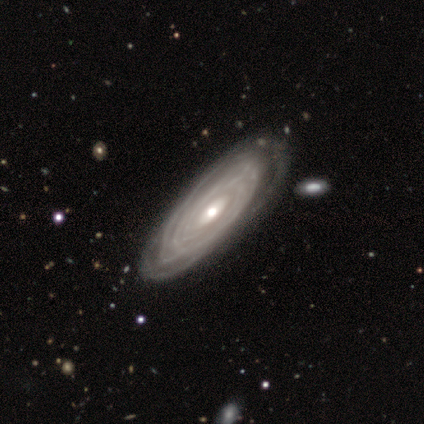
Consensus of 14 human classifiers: smooth_or_featured: featured or disk (p=1.00)
disk_edge_on: no (p=0.93) [alt: yes p=0.07]
bar: no (p=0.62) [alt: weak p=0.23]
has_spiral_arms: yes (p=0.92) [alt: no p=0.08]
spiral_winding: tight (p=0.92) [alt: medium p=0.08]
spiral_arm_count: can't tell (p=0.50) [alt: more than 4 p=0.25]
bulge_size: moderate (p=0.54) [alt: small p=0.46]
merging: none (p=0.71) [alt: minor disturbance p=0.14]